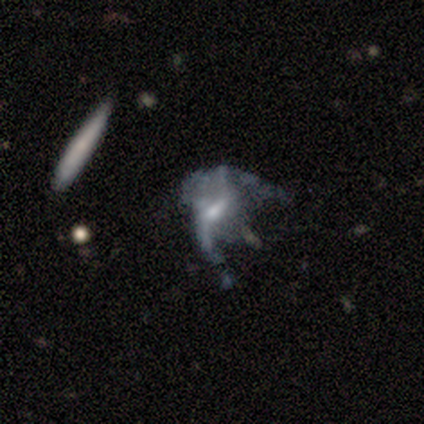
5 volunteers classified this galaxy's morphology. smooth-or-featured: featured or disk: 100% | smooth: 0% | star or artifact: 0%
  disk-edge-on: no: 100% | yes: 0%
    bar: no: 60% | strong: 20% | weak: 20%
    has-spiral-arms: no: 60% | yes: 40%
    bulge-size: none: 40% | large: 20% | moderate: 20% | small: 20% | dominant: 0%
  merging: major disturbance: 60% | none: 40% | minor disturbance: 0% | merger: 0%